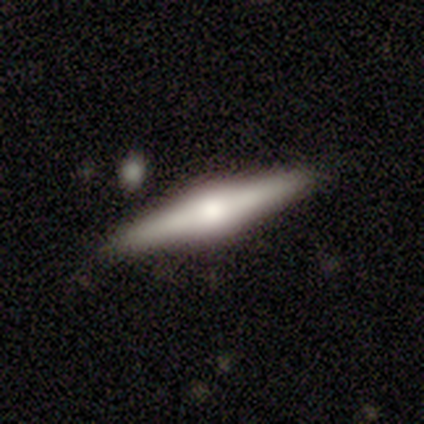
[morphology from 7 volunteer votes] Smooth or featured?
  - smooth: 57% *
  - featured or disk: 43%
  - star or artifact: 0%
How rounded?
  - cigar-shaped: 100% *
  - round: 0%
  - in between: 0%
Merging?
  - none: 86% *
  - merger: 14%
  - minor disturbance: 0%
  - major disturbance: 0%